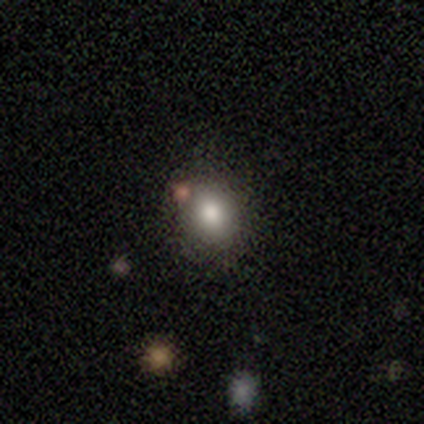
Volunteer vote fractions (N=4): Overall: smooth (75%). How rounded: round (67%; in between 33%). Merging: none (100%).